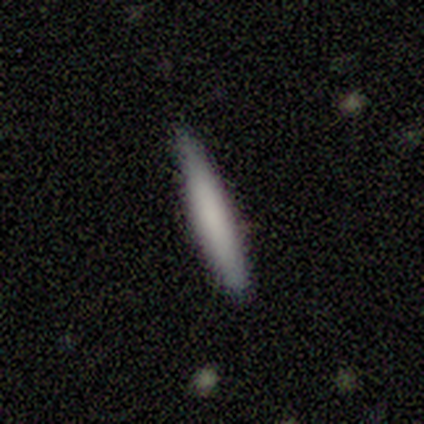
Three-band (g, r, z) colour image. It shows a smooth galaxy with no disk features (50%) that is in between round and cigar-shaped (50%, tied with cigar-shaped). Merging: none (67%).